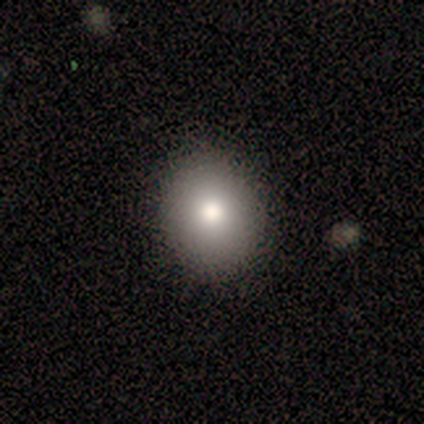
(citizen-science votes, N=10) Smooth or featured: smooth — 100%
How rounded: round — 50% (tied with in between — 50%)
Merging: none — 90% (minor disturbance — 10%)